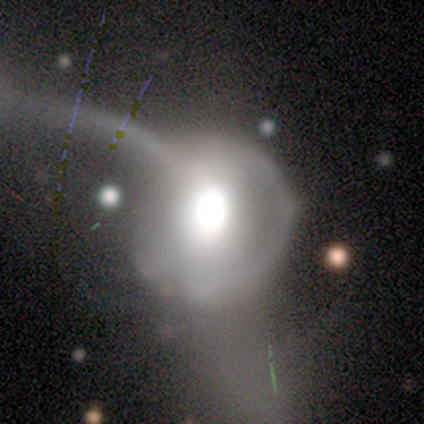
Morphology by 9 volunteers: Smooth or featured? featured or disk (56%)
Edge-on disk? no (100%)
Bar? no (80%)
Spiral arms? no (80%)
Bulge size? moderate (60%)
Merging? major disturbance (71%)